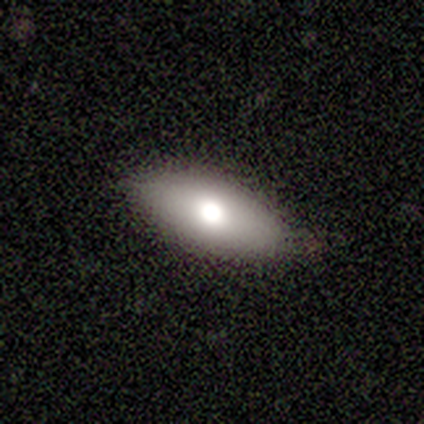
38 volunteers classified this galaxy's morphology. smooth-or-featured: smooth: 63% | featured or disk: 26% | star or artifact: 11%
  how-rounded: in between: 79% | cigar-shaped: 17% | round: 4%
  merging: none: 85% | minor disturbance: 6% | major disturbance: 6% | merger: 3%